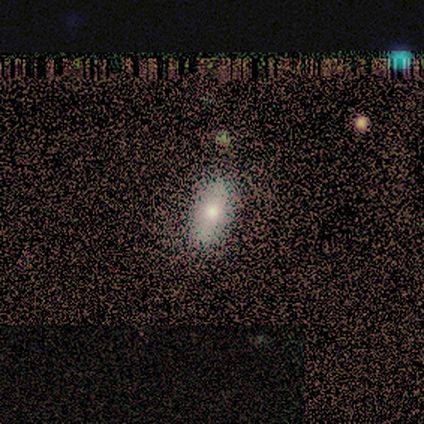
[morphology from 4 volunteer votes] A smooth galaxy with no disk features (75%) that is in between round and cigar-shaped (100%). Merging: none (75%).